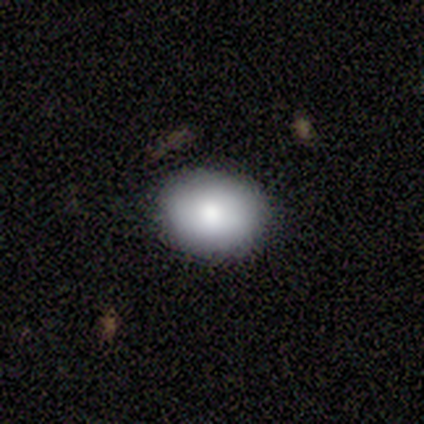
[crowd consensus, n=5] A smooth galaxy with no disk features (100%) that is in between round and cigar-shaped (60%).

Vote fractions:
- Smooth or featured? smooth: 100% / featured or disk: 0% / star or artifact: 0%
- How rounded? in between: 60% / round: 40% / cigar-shaped: 0%
- Merging? none: 100% / minor disturbance: 0% / major disturbance: 0% / merger: 0%